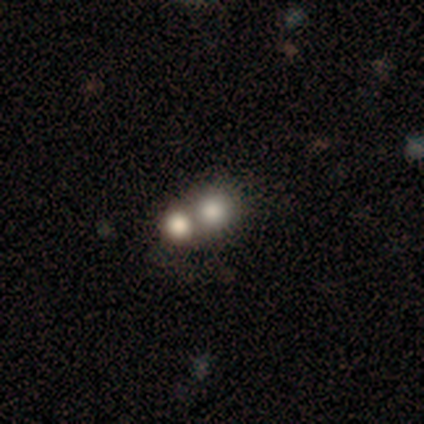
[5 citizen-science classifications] Morphology: type=smooth (80%); roundness=round (100%); merging=none (50%, tied with merger).